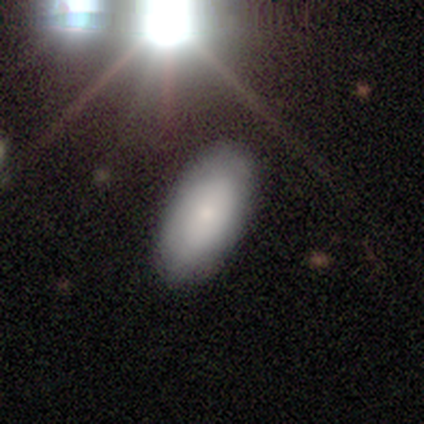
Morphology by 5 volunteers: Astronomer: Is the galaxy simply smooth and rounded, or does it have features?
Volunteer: smooth — 100%.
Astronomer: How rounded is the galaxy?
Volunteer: in between — 100%.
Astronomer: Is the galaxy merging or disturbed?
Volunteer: none — 80%.